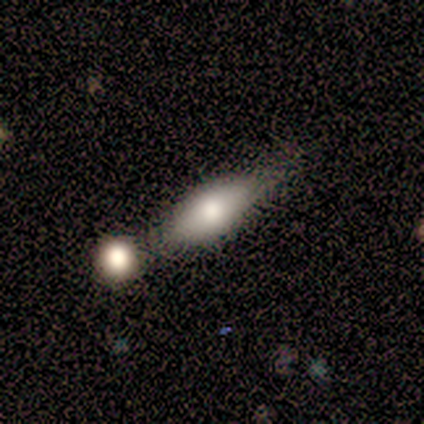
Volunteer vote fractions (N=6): Smooth or featured? smooth (83%)
How rounded? in between (80%)
Merging? none (50%)